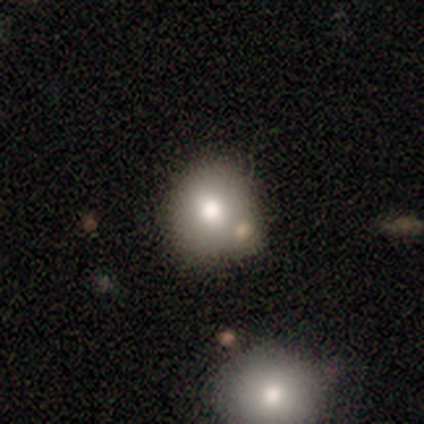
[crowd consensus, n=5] A smooth galaxy with no disk features (60%) that is round (67%). Merging: none (60%).